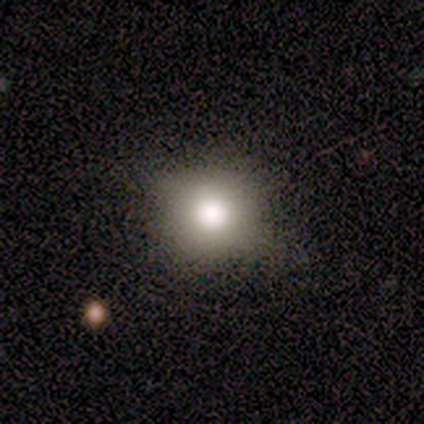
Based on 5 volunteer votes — A smooth galaxy with no disk features (80%) that is round (100%).

Vote fractions:
- Smooth or featured? smooth: 80% / star or artifact: 20% / featured or disk: 0%
- How rounded? round: 100% / in between: 0% / cigar-shaped: 0%
- Merging? none: 75% / minor disturbance: 25% / major disturbance: 0% / merger: 0%